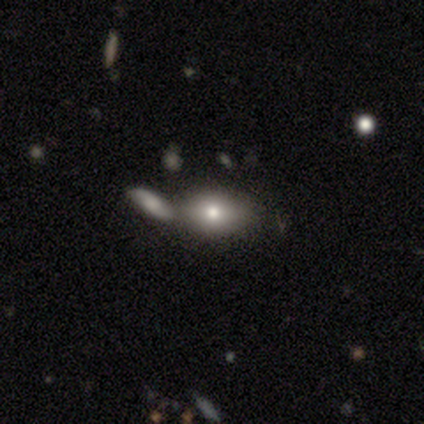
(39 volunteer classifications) Smooth or featured?
  - smooth: 77% *
  - featured or disk: 21%
  - star or artifact: 3%
How rounded?
  - in between: 87% *
  - round: 13%
  - cigar-shaped: 0%
Merging?
  - none: 47% *
  - merger: 37%
  - minor disturbance: 16%
  - major disturbance: 0%